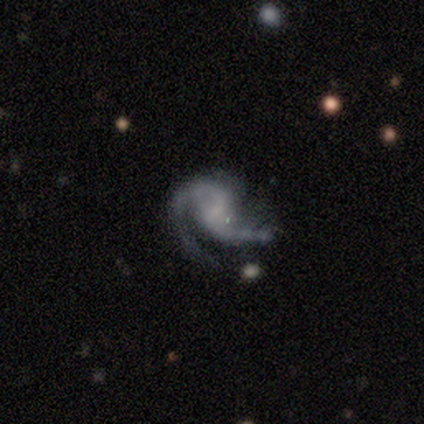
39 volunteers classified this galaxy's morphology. Smooth or featured?
  - featured or disk: 90% *
  - star or artifact: 8%
  - smooth: 3%
Edge-on disk?
  - no: 100% *
  - yes: 0%
Bar?
  - weak: 51% *
  - no: 49%
  - strong: 0%
Spiral arms?
  - yes: 94% *
  - no: 6%
Spiral winding?
  - medium: 52% *
  - loose: 42%
  - tight: 6%
Spiral arm count?
  - 2: 82% *
  - 1: 12%
  - can't tell: 6%
  - 3: 0%
  - 4: 0%
  - more than 4: 0%
Bulge size?
  - none: 71% *
  - small: 23%
  - moderate: 6%
  - dominant: 0%
  - large: 0%
Merging?
  - none: 47% *
  - minor disturbance: 31%
  - major disturbance: 22%
  - merger: 0%